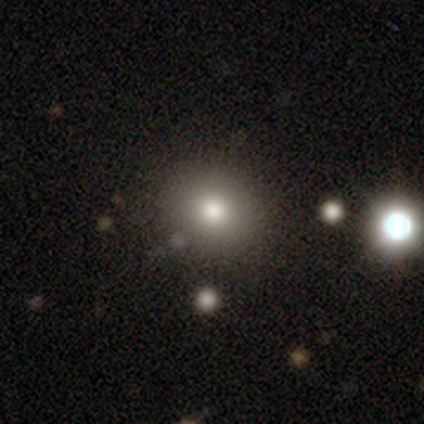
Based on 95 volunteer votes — Q: Smooth or featured?
A: smooth (75%); runner-up: featured or disk (13%)
Q: How rounded?
A: round (85%); runner-up: in between (14%)
Q: Merging?
A: none (90%); runner-up: major disturbance (6%)